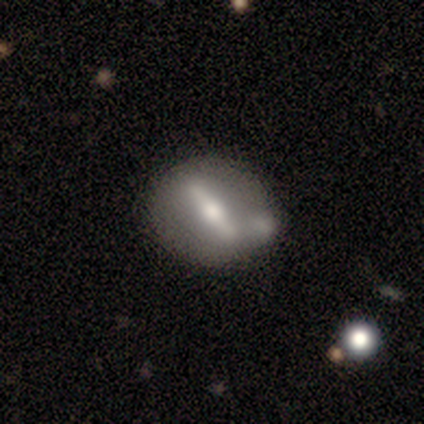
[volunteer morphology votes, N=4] Q: Smooth or featured?
A: smooth (50%); tied with: featured or disk (50%)
Q: How rounded?
A: round (50%); tied with: in between (50%)
Q: Merging?
A: none (75%); runner-up: minor disturbance (25%)